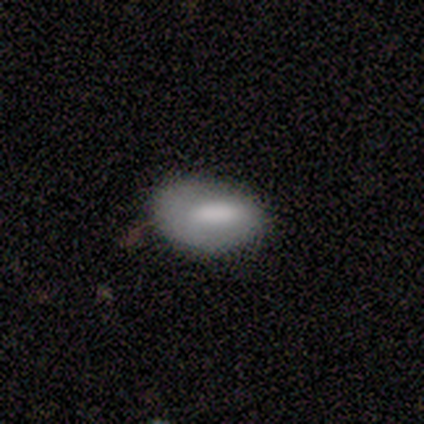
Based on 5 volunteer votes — Smooth or featured: smooth — 100%
How rounded: in between — 80% (round — 20%)
Merging: none — 40% (tied with minor disturbance — 40%)